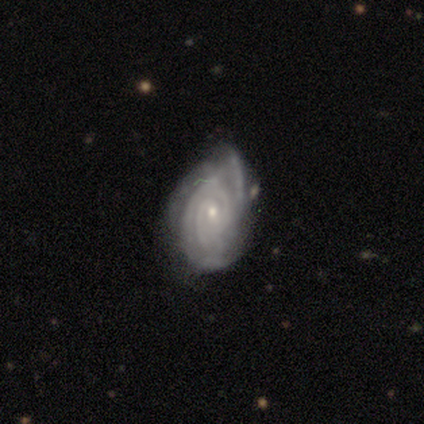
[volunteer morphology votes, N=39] A featured or disk galaxy (90%) with no bar (60%), 3 (26%, tied with can't tell) tight (85%) spiral arms (97%) and a small central bulge (77%). Merging: minor disturbance (44%).